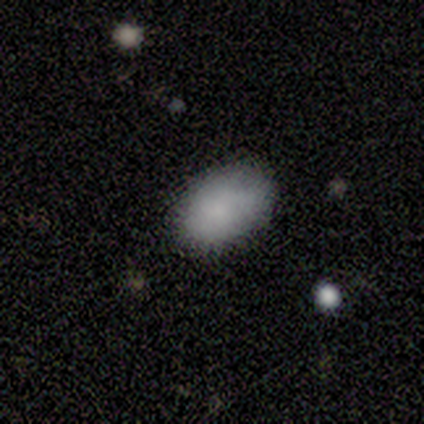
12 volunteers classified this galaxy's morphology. Smooth or featured: smooth — 100%
How rounded: in between — 100%
Merging: none — 75% (minor disturbance — 17%)